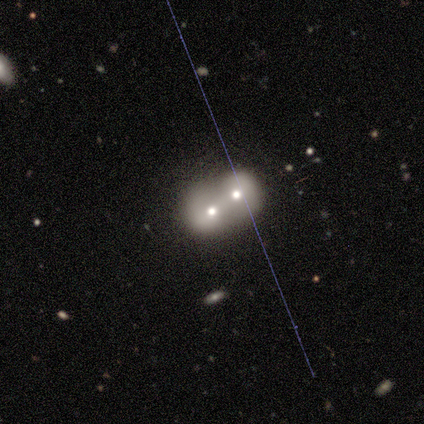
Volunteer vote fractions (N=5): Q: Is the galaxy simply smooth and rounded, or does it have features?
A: smooth — 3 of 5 (60%).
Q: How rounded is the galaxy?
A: round — 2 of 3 (67%).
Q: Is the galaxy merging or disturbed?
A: merger — 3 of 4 (75%).